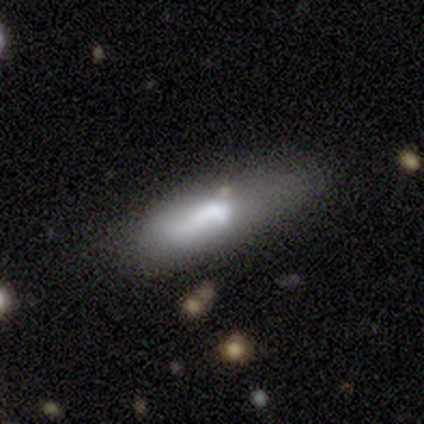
Smooth or featured? featured or disk (60%)
Edge-on disk? no (100%)
Bar? no (67%)
Spiral arms? no (67%)
Bulge size? large (67%)
Merging? minor disturbance (40%, tied with major disturbance)